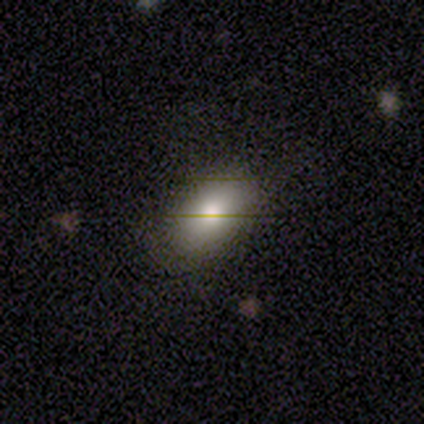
Morphology: type=smooth (67%); roundness=in between (100%); merging=none (88%).